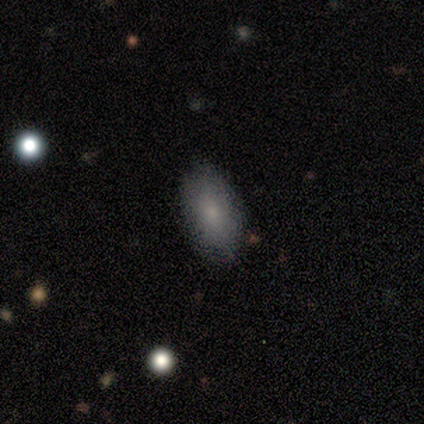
A smooth galaxy with no disk features (80%) that is in between round and cigar-shaped (75%).

Vote fractions:
- Smooth or featured? smooth: 80% / featured or disk: 20% / star or artifact: 0%
- How rounded? in between: 75% / round: 25% / cigar-shaped: 0%
- Merging? none: 100% / minor disturbance: 0% / major disturbance: 0% / merger: 0%